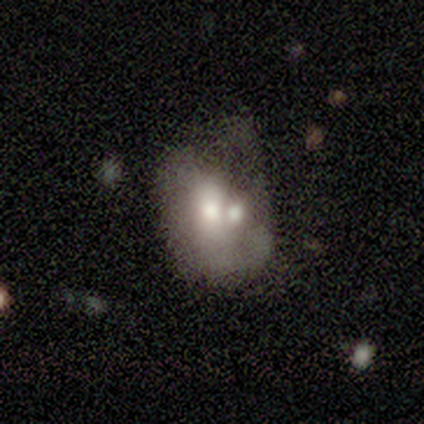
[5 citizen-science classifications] This appears to be a smooth galaxy with no disk features (100%) that is in between round and cigar-shaped (80%). Merging: minor disturbance (40%, tied with merger).